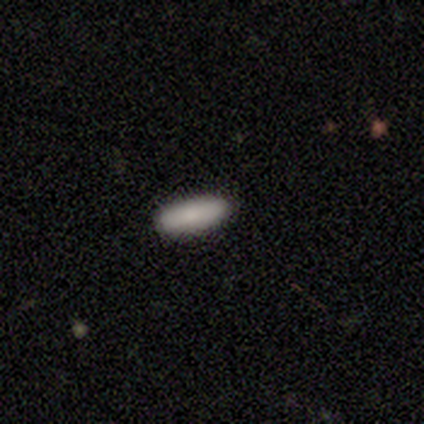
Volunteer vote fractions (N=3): Volunteers were most divided on "smooth or featured": smooth: 67%, featured or disk: 33%, star or artifact: 0%. More confident: how rounded — in between (100%); merging — none (100%).